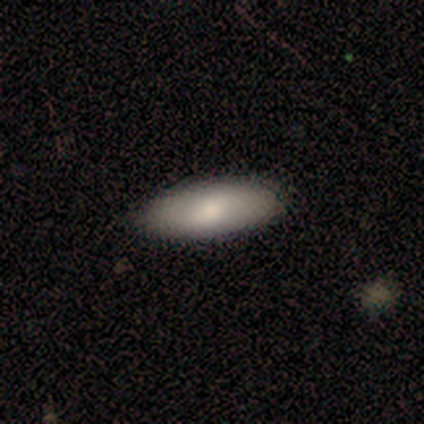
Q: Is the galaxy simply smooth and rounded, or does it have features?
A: smooth — 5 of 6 (83%).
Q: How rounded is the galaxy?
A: in between — 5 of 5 (100%).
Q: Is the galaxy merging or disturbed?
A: none — 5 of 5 (100%).